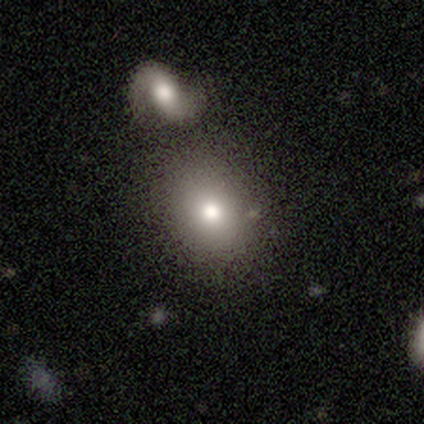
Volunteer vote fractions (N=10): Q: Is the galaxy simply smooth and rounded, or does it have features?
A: smooth — 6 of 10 (60%).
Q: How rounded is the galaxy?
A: round — 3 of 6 (50%, tied with in between).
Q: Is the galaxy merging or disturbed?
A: none — 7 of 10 (70%).